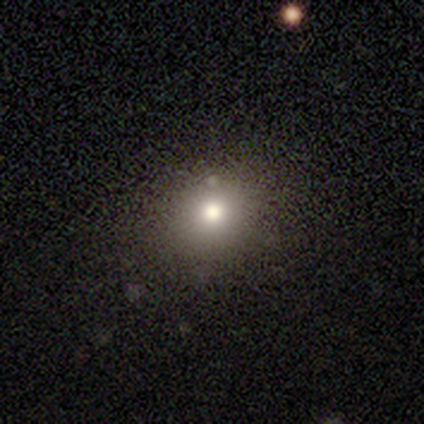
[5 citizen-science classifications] A smooth galaxy with no disk features (100%) that is round (100%).

Vote fractions:
- Smooth or featured? smooth: 100% / featured or disk: 0% / star or artifact: 0%
- How rounded? round: 100% / in between: 0% / cigar-shaped: 0%
- Merging? none: 40% (tied) / minor disturbance: 40% (tied) / major disturbance: 20% / merger: 0%